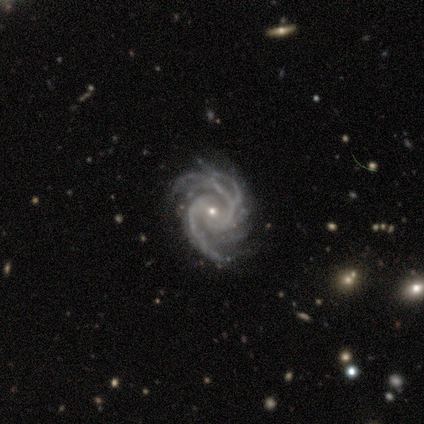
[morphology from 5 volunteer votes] smooth-or-featured: featured or disk: 100% | smooth: 0% | star or artifact: 0%
  disk-edge-on: no: 100% | yes: 0%
    bar: no: 60% | weak: 40% | strong: 0%
    has-spiral-arms: yes: 100% | no: 0%
      spiral-winding: tight: 60% | medium: 40% | loose: 0%
      spiral-arm-count: 3: 40% | 2: 20% | 4: 20% | can't tell: 20% | 1: 0% | more than 4: 0%
    bulge-size: small: 100% | dominant: 0% | large: 0% | moderate: 0% | none: 0%
  merging: none: 80% | minor disturbance: 20% | major disturbance: 0% | merger: 0%